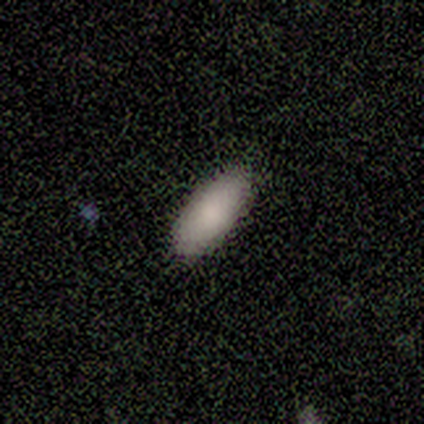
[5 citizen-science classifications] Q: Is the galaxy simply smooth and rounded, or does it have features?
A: smooth — 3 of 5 (60%).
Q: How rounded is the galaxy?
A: cigar-shaped — 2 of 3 (67%).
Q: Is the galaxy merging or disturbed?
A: none — 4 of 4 (100%).